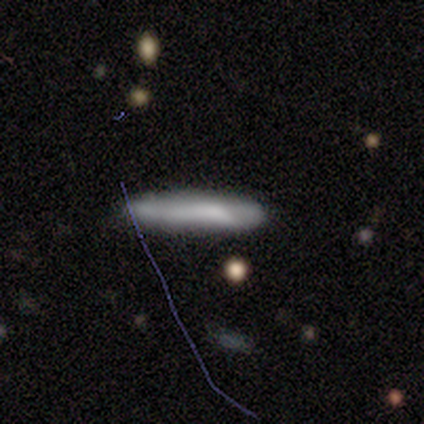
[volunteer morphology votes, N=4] A smooth galaxy with no disk features (50%, tied with featured or disk) that is cigar-shaped (100%). Merging: none (100%).